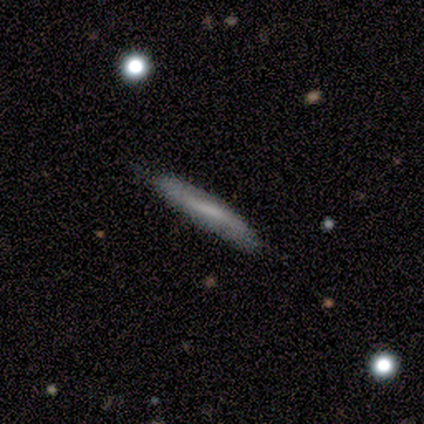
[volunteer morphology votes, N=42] Smooth or featured?
  - smooth: 57% *
  - featured or disk: 40%
  - star or artifact: 2%
How rounded?
  - cigar-shaped: 96% *
  - round: 4%
  - in between: 0%
Merging?
  - none: 71% *
  - minor disturbance: 29%
  - major disturbance: 0%
  - merger: 0%